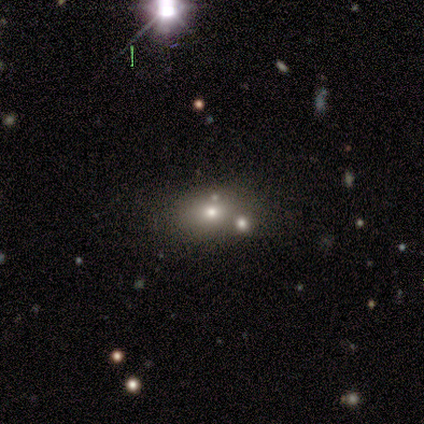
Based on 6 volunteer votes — Morphology: type=smooth (83%); roundness=in between (100%); merging=none (60%).